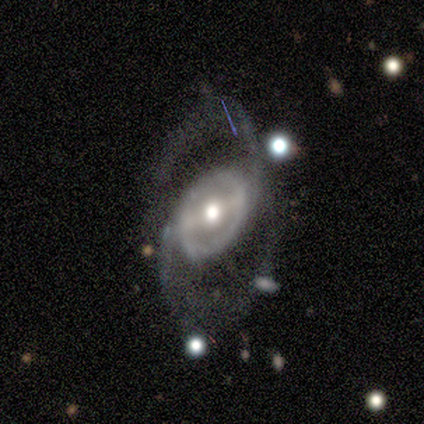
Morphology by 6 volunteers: This appears to be a featured or disk galaxy (100%) with a strong bar (83%), 2 (100%) medium (60%) spiral arms (83%) and a moderate central bulge (67%). Merging: none (33%, tied with minor disturbance and major disturbance).